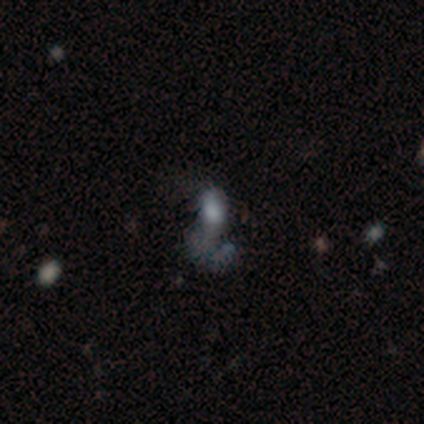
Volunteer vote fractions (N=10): This appears to be a featured or disk galaxy (50%) with no bar (80%), no spiral arms (80%) and a moderate central bulge (40%). Merging: major disturbance (57%).